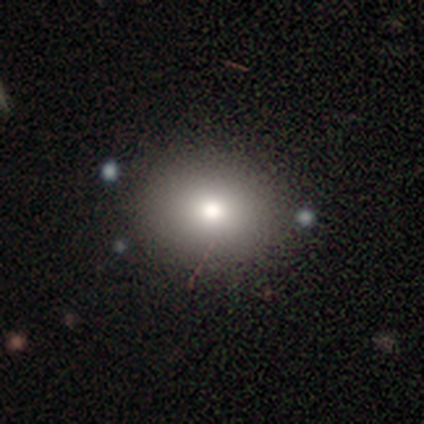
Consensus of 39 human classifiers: Smooth or featured? 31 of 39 (79%) said smooth. How rounded? 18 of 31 (58%) said round. Merging? 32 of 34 (94%) said none.